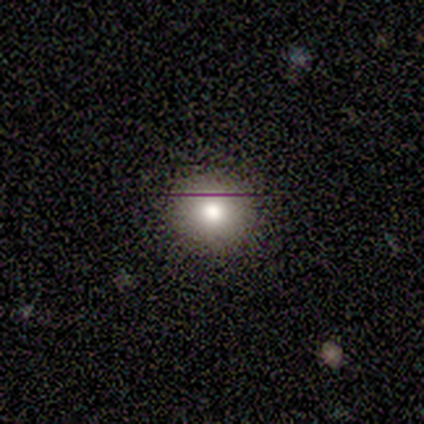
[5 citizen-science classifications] A smooth galaxy with no disk features (80%) that is round (75%).

Vote fractions:
- Smooth or featured? smooth: 80% / star or artifact: 20% / featured or disk: 0%
- How rounded? round: 75% / in between: 25% / cigar-shaped: 0%
- Merging? none: 100% / minor disturbance: 0% / major disturbance: 0% / merger: 0%